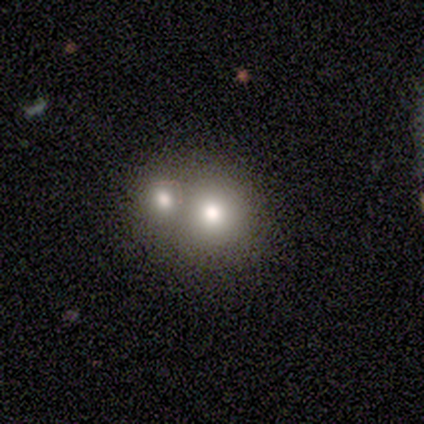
Smooth or featured? 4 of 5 (80%) said smooth. How rounded? 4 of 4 (100%) said round. Merging? 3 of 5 (60%) said merger.